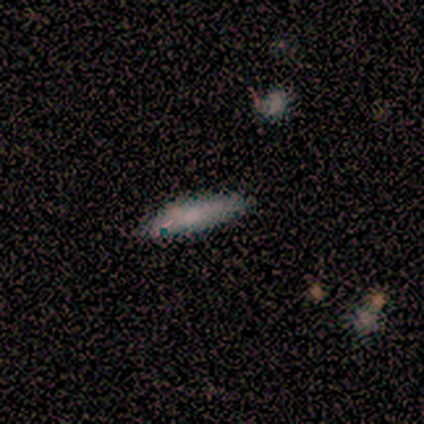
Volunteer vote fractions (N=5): smooth_or_featured: smooth (p=0.80) [alt: featured or disk p=0.20]
how_rounded: cigar-shaped (p=0.75) [alt: in between p=0.25]
merging: none (p=0.80) [alt: minor disturbance p=0.20]